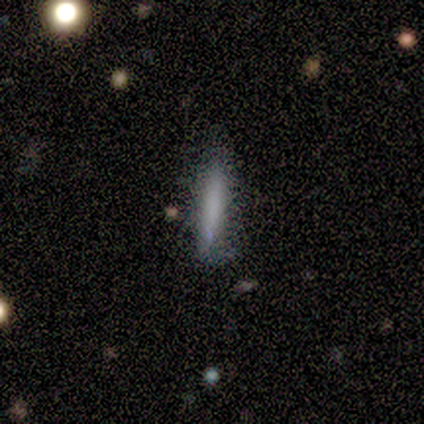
smooth_or_featured: smooth (p=0.58) [alt: featured or disk p=0.34]
how_rounded: cigar-shaped (p=1.00)
merging: none (p=0.69) [alt: minor disturbance p=0.23]